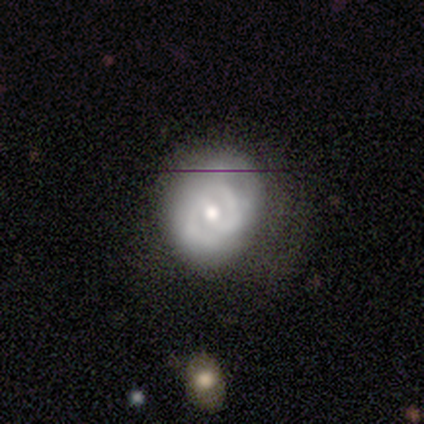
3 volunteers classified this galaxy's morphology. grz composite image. It shows a featured or disk galaxy (67%) with a weak bar (50%, tied with no), 2 (100%) tight (100%) spiral arms (50%, tied with no) and a small central bulge (100%). Merging: none (33%, tied with minor disturbance and major disturbance).